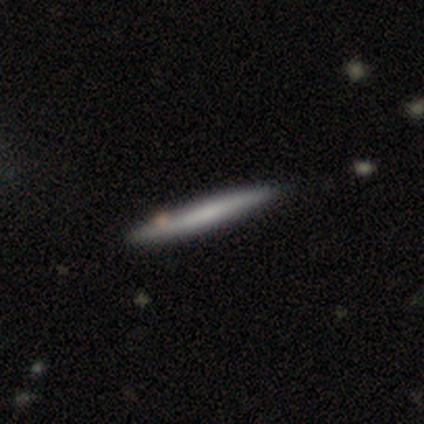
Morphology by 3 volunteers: smooth_or_featured: featured or disk (p=0.67) [alt: smooth p=0.33]
disk_edge_on: yes (p=1.00)
edge_on_bulge: none (p=1.00)
merging: none (p=0.67) [alt: minor disturbance p=0.33]